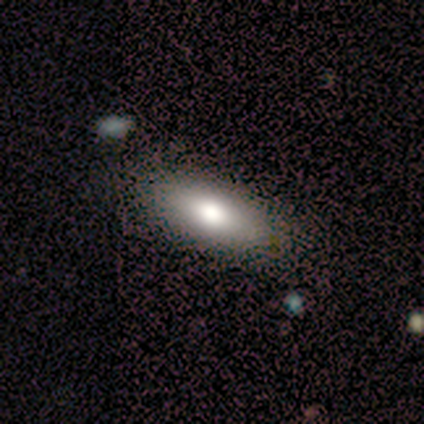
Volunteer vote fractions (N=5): Volunteers were most divided on "bulge size" (3-way tie): dominant: 33%, large: 33%, moderate: 33%, small: 0%, none: 0%. More confident: edge-on disk — no (100%); bar — no (100%); spiral arms — no (100%); merging — none (100%); smooth or featured — featured or disk (60%).